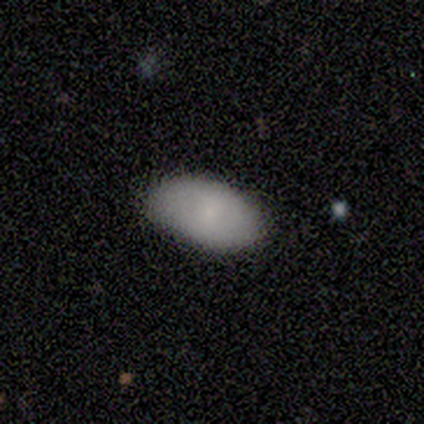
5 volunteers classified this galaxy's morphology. Smooth or featured? smooth (60%)
How rounded? in between (100%)
Merging? none (80%)